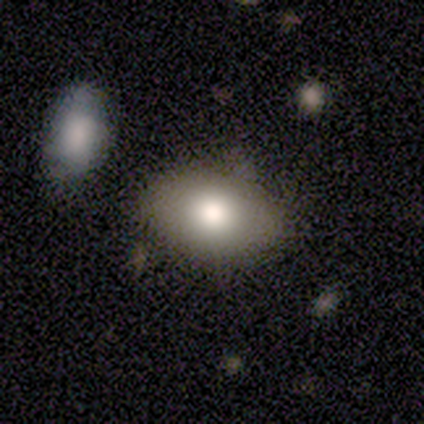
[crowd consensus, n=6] Volunteers were most divided on "how rounded": in between: 60%, round: 40%, cigar-shaped: 0%. More confident: merging — none (100%); smooth or featured — smooth (83%).